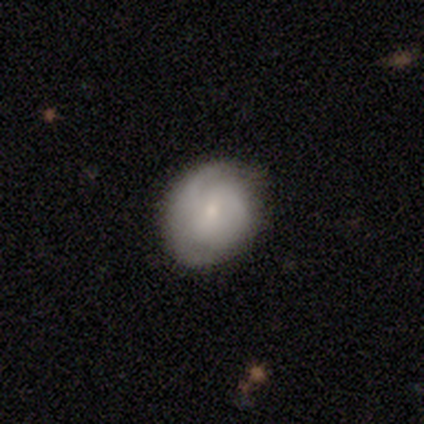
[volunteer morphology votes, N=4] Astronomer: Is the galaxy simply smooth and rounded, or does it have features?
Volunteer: featured or disk — 100%.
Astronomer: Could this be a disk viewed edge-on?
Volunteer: no — 100%.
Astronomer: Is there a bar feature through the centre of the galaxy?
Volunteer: weak — 50%, tied with no at 50%.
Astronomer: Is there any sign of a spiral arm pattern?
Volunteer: yes — 75%.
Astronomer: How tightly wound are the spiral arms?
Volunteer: medium — 67%.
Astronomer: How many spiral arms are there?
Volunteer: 1 — 33%, tied with 3 and can't tell at 33%.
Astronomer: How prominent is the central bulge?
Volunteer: small — 75%.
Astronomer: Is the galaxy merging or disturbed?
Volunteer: minor disturbance — 75%.